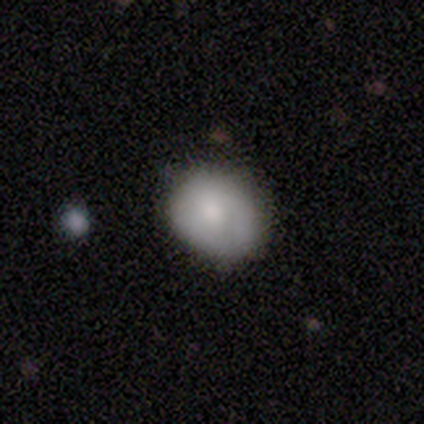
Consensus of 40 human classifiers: Smooth or featured? 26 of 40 (65%) said smooth. How rounded? 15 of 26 (58%) said round. Merging? 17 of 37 (46%) said none.